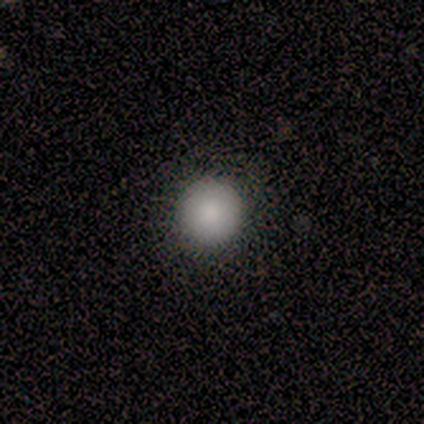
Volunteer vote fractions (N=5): Q: Smooth or featured?
A: smooth (100%)
Q: How rounded?
A: round (100%)
Q: Merging?
A: none (80%); runner-up: major disturbance (20%)